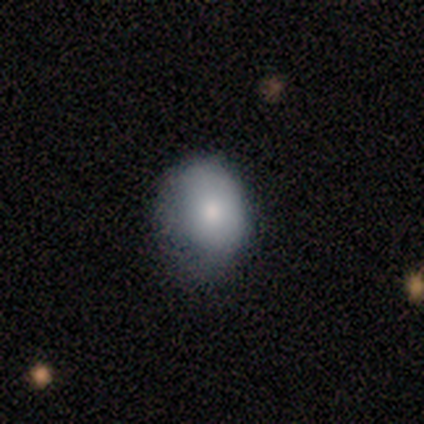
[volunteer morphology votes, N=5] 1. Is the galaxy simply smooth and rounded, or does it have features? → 80% smooth, 20% featured or disk, 0% star or artifact.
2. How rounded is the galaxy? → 50% round (tied), 50% in between (tied), 0% cigar-shaped.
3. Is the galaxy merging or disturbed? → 80% none, 20% minor disturbance, 0% major disturbance, 0% merger.